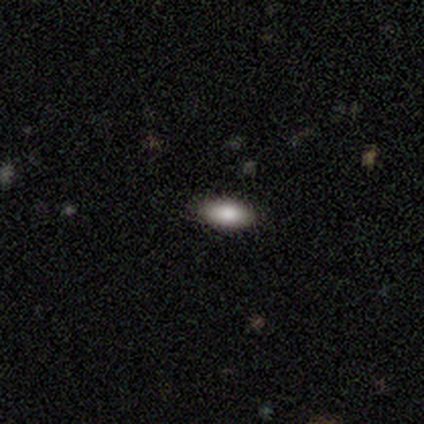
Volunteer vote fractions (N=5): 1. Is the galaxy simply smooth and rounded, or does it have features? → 80% smooth, 20% featured or disk, 0% star or artifact.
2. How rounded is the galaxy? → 100% in between, 0% round, 0% cigar-shaped.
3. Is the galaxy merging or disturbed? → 60% none, 20% minor disturbance, 20% major disturbance, 0% merger.